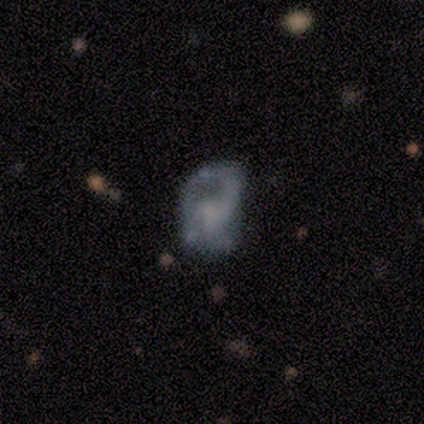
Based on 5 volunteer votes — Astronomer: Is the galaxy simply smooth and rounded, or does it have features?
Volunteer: featured or disk — 60%.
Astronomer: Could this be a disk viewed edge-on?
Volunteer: no — 100%.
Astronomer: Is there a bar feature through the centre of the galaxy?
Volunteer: no — 100%.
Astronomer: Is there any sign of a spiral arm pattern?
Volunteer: yes — 67%.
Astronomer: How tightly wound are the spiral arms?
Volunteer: medium — 50%, tied with loose at 50%.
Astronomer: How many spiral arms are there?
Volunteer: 1 — 50%, tied with 3 at 50%.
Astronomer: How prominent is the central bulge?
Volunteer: small — 67%.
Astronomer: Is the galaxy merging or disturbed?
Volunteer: none — 50%, tied with merger at 50%.